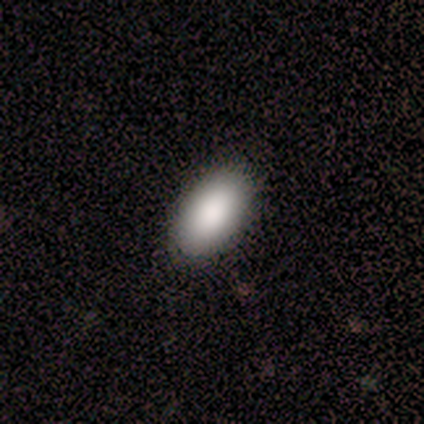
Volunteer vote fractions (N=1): smooth 100%, featured or disk 0%, star or artifact 0%. Down the decision tree: how rounded — in between (100%); merging — none (100%).